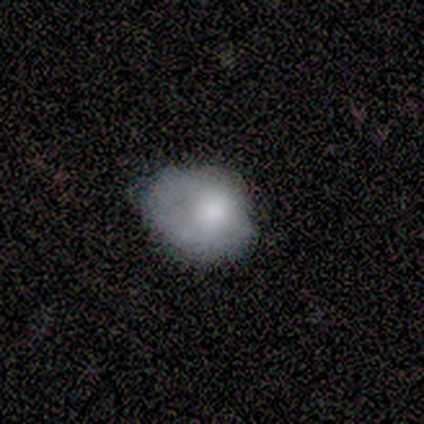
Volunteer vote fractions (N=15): Smooth or featured? smooth (73%)
How rounded? in between (73%)
Merging? none (40%)